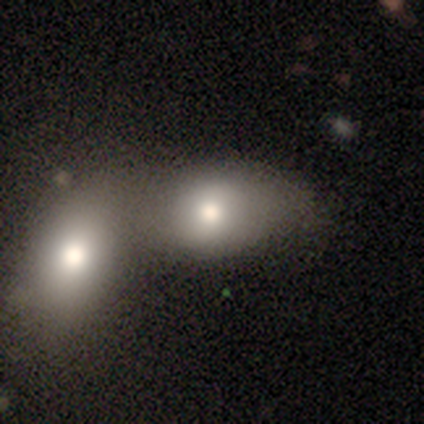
Morphology: type=smooth (80%); roundness=in between (75%); merging=merger (66%).